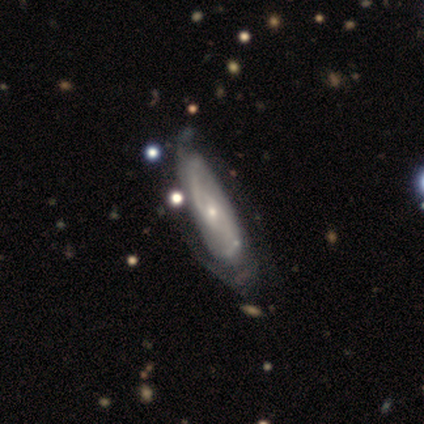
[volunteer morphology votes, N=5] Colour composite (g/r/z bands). It shows a featured or disk galaxy (80%) with a weak bar (67%), 2 (67%) tight (33%, tied with medium and loose) spiral arms (100%) and a moderate central bulge (67%). Merging: none (40%, tied with minor disturbance).